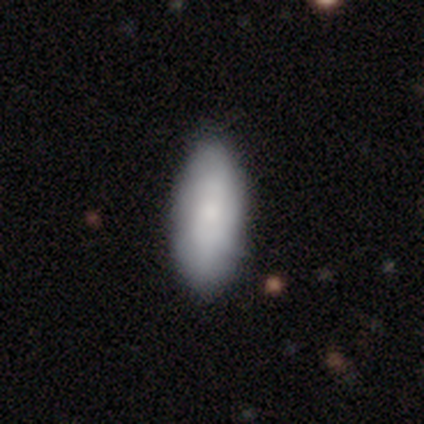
Volunteers were most divided on "merging": none: 75%, minor disturbance: 25%, major disturbance: 0%, merger: 0%. More confident: how rounded — in between (100%); smooth or featured — smooth (80%).